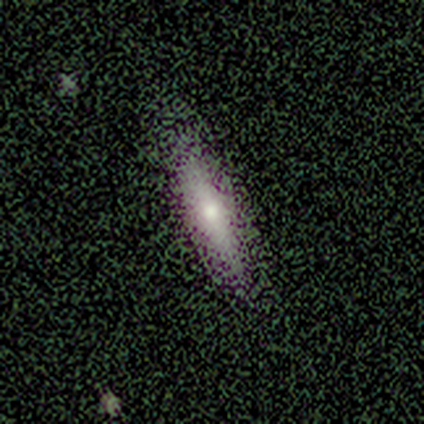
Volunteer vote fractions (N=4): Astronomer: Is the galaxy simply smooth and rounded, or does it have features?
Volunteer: smooth — 50%, tied with featured or disk at 50%.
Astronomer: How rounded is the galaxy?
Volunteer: cigar-shaped — 100%.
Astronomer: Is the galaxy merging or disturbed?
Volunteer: none — 75%.